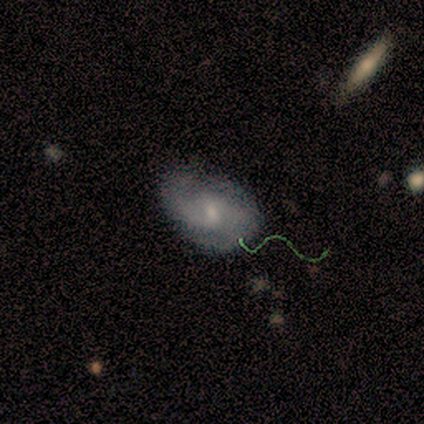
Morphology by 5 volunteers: type=featured or disk (80%); edge-on=no (75%); bar=no (67%); spiral arms=yes (100%); winding=medium (67%); arm count=2 (67%); bulge=small (67%); merging=none (60%).